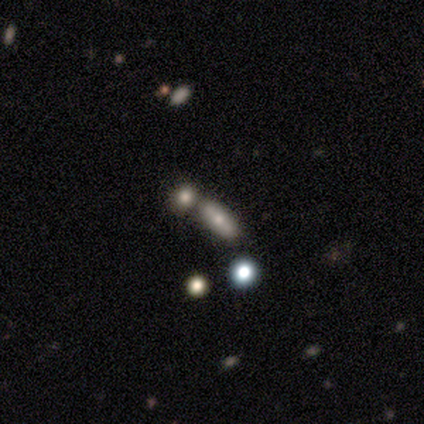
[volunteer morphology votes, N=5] A smooth galaxy with no disk features (80%) that is in between round and cigar-shaped (100%).

Vote fractions:
- Smooth or featured? smooth: 80% / star or artifact: 20% / featured or disk: 0%
- How rounded? in between: 100% / round: 0% / cigar-shaped: 0%
- Merging? none: 50% (tied) / minor disturbance: 50% (tied) / major disturbance: 0% / merger: 0%